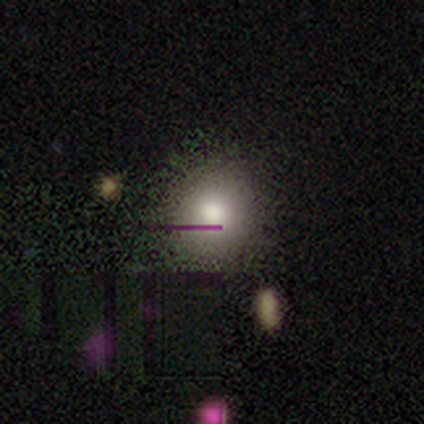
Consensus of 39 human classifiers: A smooth galaxy with no disk features (74%) that is round (83%).

Vote fractions:
- Smooth or featured? smooth: 74% / star or artifact: 15% / featured or disk: 10%
- How rounded? round: 83% / in between: 17% / cigar-shaped: 0%
- Merging? none: 64% / minor disturbance: 3% / major disturbance: 0% / merger: 0%